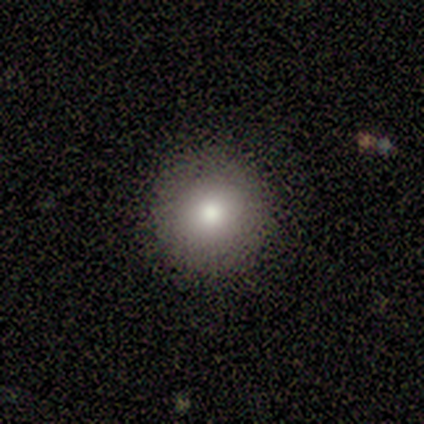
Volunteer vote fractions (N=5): Smooth or featured? smooth (80%)
How rounded? round (75%)
Merging? none (80%)